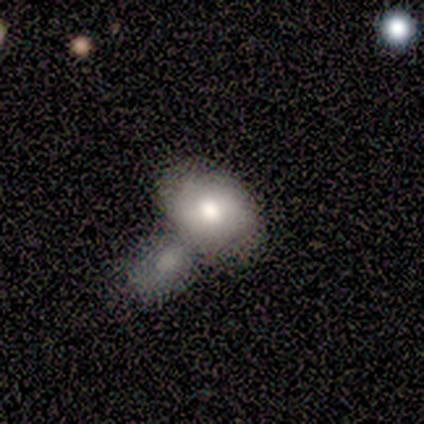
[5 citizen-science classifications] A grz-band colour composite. It shows a smooth galaxy with no disk features (100%) that is in between round and cigar-shaped (80%). Merging: merger (60%).